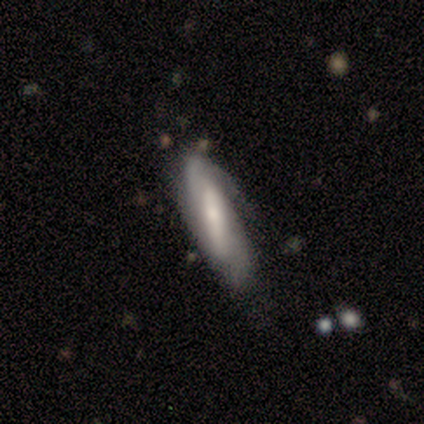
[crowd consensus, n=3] A featured or disk galaxy (67%) viewed edge-on (50%, tied with no) with no central bulge (100%).

Vote fractions:
- Smooth or featured? featured or disk: 67% / smooth: 33% / star or artifact: 0%
- Edge-on disk? yes: 50% (tied) / no: 50% (tied)
- Edge-on bulge? none: 100% / boxy: 0% / rounded: 0%
- Merging? none: 67% / minor disturbance: 33% / major disturbance: 0% / merger: 0%